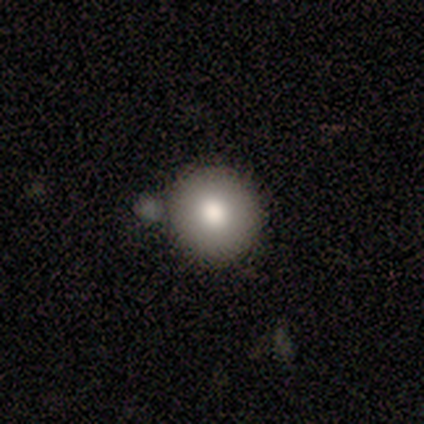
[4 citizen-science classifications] Q: Smooth or featured?
A: smooth (50%); tied with: featured or disk (50%)
Q: How rounded?
A: round (100%)
Q: Merging?
A: none (100%)